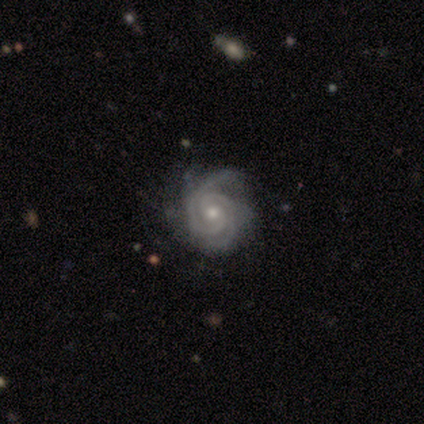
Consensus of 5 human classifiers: A featured or disk galaxy (100%) with no bar (80%), 2 (100%) tight (75%) spiral arms (80%) and a moderate central bulge (60%). Merging: none (60%).